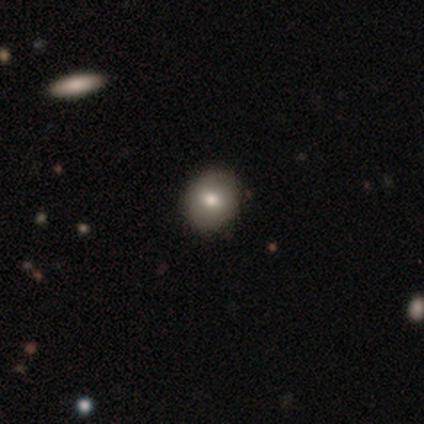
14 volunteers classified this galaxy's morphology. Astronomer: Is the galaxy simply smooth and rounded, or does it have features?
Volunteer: smooth — 71%.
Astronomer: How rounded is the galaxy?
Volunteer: round — 70%.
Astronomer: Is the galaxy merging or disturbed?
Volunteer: none — 77%.